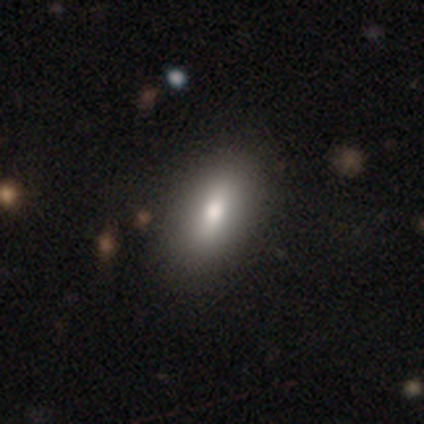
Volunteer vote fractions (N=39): A smooth galaxy with no disk features (69%) that is in between round and cigar-shaped (93%). Merging: none (68%).